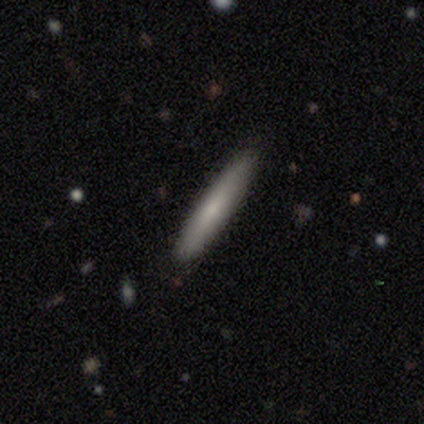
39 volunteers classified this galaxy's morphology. Smooth or featured?
  - smooth: 69% *
  - featured or disk: 26%
  - star or artifact: 5%
How rounded?
  - cigar-shaped: 96% *
  - in between: 4%
  - round: 0%
Merging?
  - none: 95% *
  - minor disturbance: 5%
  - major disturbance: 0%
  - merger: 0%